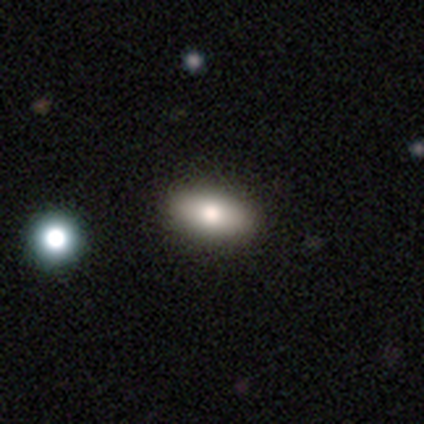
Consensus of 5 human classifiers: Volunteers were most divided on "smooth or featured": smooth: 80%, featured or disk: 20%, star or artifact: 0%. More confident: how rounded — in between (100%); merging — none (80%).